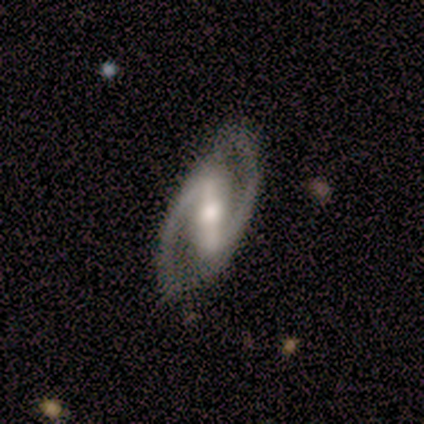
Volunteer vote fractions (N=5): Smooth or featured? 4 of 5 (80%) said featured or disk. Edge-on disk? 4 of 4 (100%) said no. Bar? 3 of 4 (75%) said strong. Spiral arms? 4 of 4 (100%) said yes. Spiral winding? 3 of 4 (75%) said medium. Spiral arm count? 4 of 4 (100%) said 2. Bulge size? 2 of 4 (50%) said moderate. Merging? 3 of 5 (60%) said none.